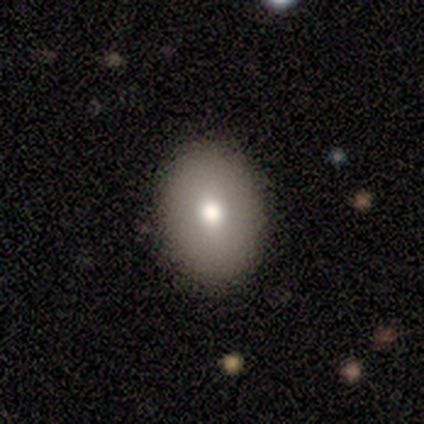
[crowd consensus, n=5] This appears to be a smooth galaxy with no disk features (80%) that is in between round and cigar-shaped (75%). Merging: none (100%).